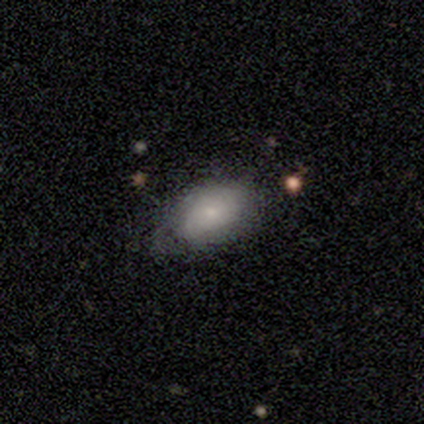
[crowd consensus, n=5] Volunteers were most divided on "smooth or featured" (2-way tie): smooth: 40%, featured or disk: 40%, star or artifact: 20%; "how rounded" (2-way tie): round: 50%, in between: 50%, cigar-shaped: 0%. More confident: merging — none (50%).